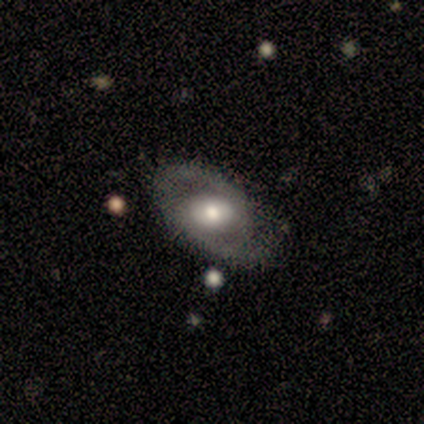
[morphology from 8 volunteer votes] Smooth or featured: featured or disk — 88% (smooth — 12%)
Edge-on disk: no — 86% (yes — 14%)
Bar: no — 67% (strong — 17%)
Spiral arms: yes — 83% (no — 17%)
Spiral winding: loose — 60% (medium — 40%)
Spiral arm count: 2 — 80% (can't tell — 20%)
Bulge size: moderate — 67% (large — 33%)
Merging: none — 75% (minor disturbance — 25%)